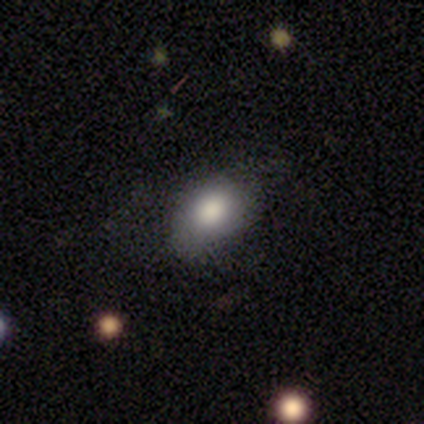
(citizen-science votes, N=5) Q: Smooth or featured?
A: smooth (80%); runner-up: star or artifact (20%)
Q: How rounded?
A: in between (100%)
Q: Merging?
A: none (75%); runner-up: minor disturbance (25%)